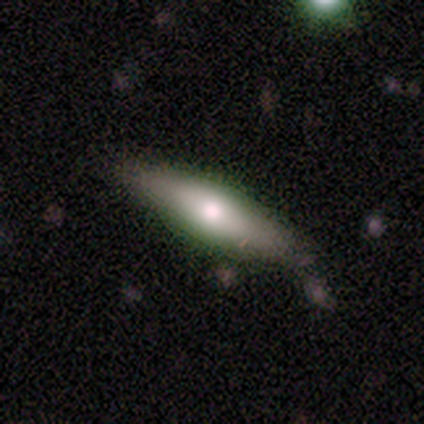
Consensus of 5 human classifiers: Overall: featured or disk (60%; smooth 40%). Edge-on disk: yes (100%). Edge-on bulge: rounded (100%). Merging: none (80%).